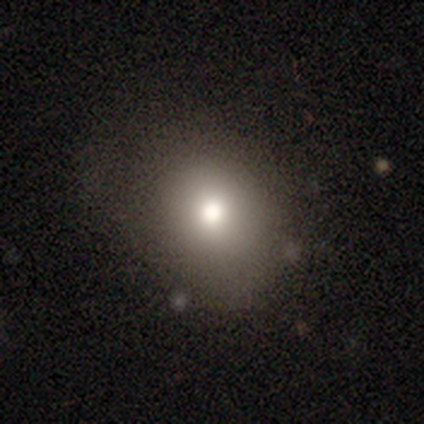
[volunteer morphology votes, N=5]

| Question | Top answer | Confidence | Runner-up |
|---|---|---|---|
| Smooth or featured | smooth | 60% | featured or disk (20%) |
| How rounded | in between | 67% | round (33%) |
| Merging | none | 50% | tied: minor disturbance (50%) |